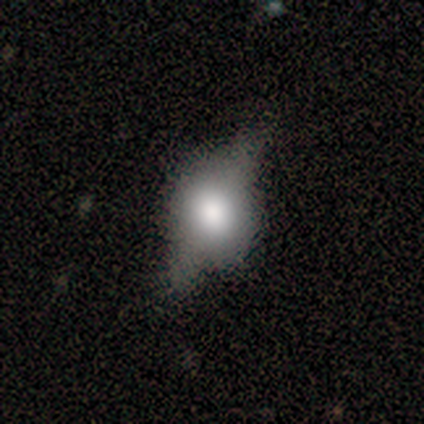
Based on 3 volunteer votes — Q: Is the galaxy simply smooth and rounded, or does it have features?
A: featured or disk — 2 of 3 (67%).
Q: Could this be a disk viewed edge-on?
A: yes — 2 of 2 (100%).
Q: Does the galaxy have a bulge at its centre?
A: rounded — 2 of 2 (100%).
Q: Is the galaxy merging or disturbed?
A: none — 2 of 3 (67%).